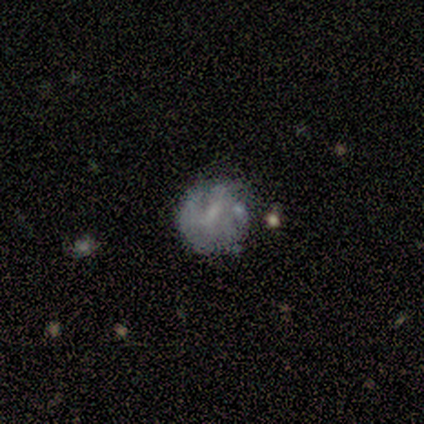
Q: Smooth or featured?
A: smooth (60%); runner-up: featured or disk (20%)
Q: How rounded?
A: round (100%)
Q: Merging?
A: none (50%); tied with: minor disturbance (50%)